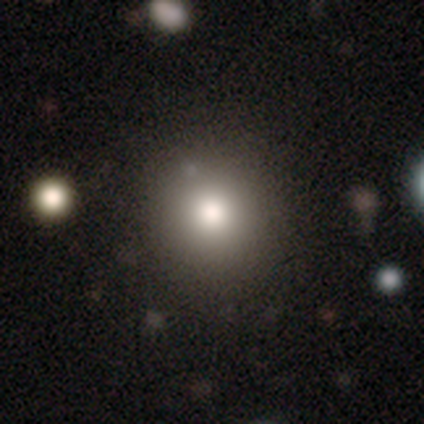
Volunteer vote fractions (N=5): Overall: smooth (100%). How rounded: round (100%). Merging: none (60%; minor disturbance 20%).